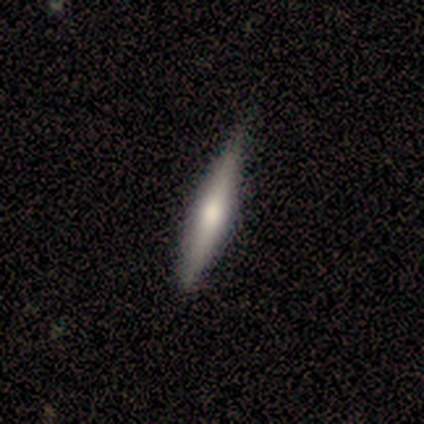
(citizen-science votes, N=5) Smooth or featured?
  - smooth: 60% *
  - featured or disk: 20%
  - star or artifact: 20%
How rounded?
  - cigar-shaped: 100% *
  - round: 0%
  - in between: 0%
Merging?
  - none: 75% *
  - merger: 25%
  - minor disturbance: 0%
  - major disturbance: 0%